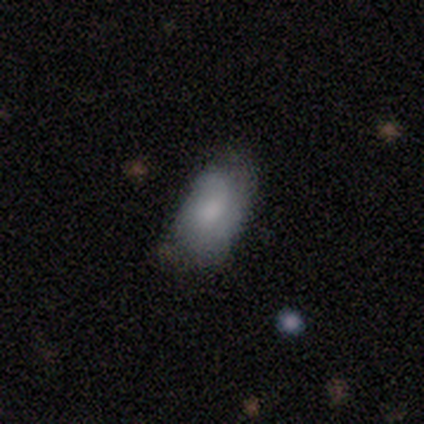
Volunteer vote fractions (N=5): smooth-or-featured: smooth: 60% | featured or disk: 20% | star or artifact: 20%
  how-rounded: in between: 100% | round: 0% | cigar-shaped: 0%
  merging: none: 75% | minor disturbance: 25% | major disturbance: 0% | merger: 0%